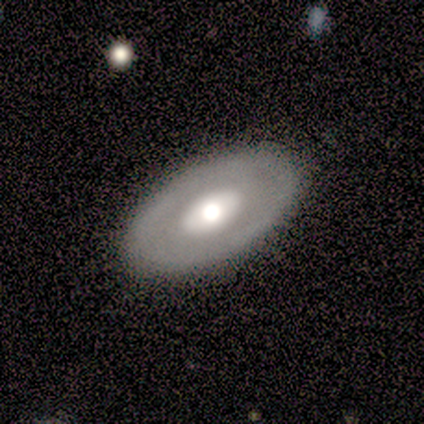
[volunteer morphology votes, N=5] This is likely a featured or disk galaxy (60%). It is clearly not viewed edge-on (100%). Bar: likely no (67%). Spiral arm pattern: likely no (67%). Central bulge: marginally large (33%, tied with moderate and small). Merging: clearly none (80%).